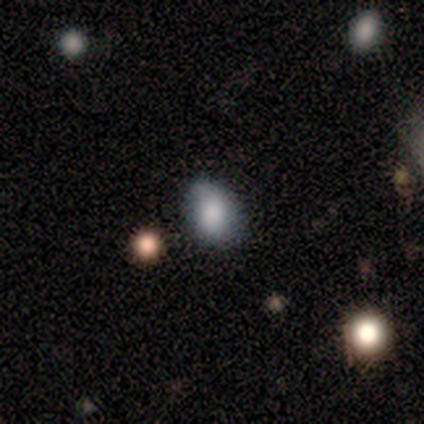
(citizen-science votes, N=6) Smooth or featured?
  - smooth: 83% *
  - featured or disk: 17%
  - star or artifact: 0%
How rounded?
  - in between: 60% *
  - round: 40%
  - cigar-shaped: 0%
Merging?
  - none: 67% *
  - minor disturbance: 33%
  - major disturbance: 0%
  - merger: 0%